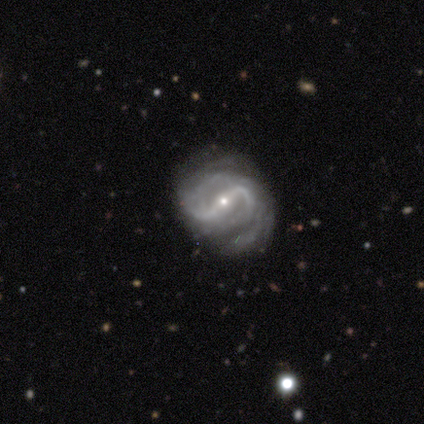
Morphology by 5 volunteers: smooth_or_featured: featured or disk (p=1.00)
disk_edge_on: no (p=1.00)
bar: strong (p=0.60) [alt: weak p=0.20]
has_spiral_arms: yes (p=1.00)
spiral_winding: tight (p=0.40) [tied with: loose p=0.40]
spiral_arm_count: 2 (p=1.00)
bulge_size: small (p=0.80) [alt: moderate p=0.20]
merging: none (p=0.60) [alt: minor disturbance p=0.40]